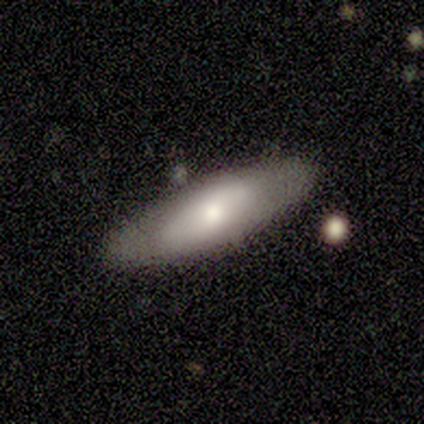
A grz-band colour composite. It shows a smooth galaxy with no disk features (80%) that is in between round and cigar-shaped (100%). Merging: none (100%).